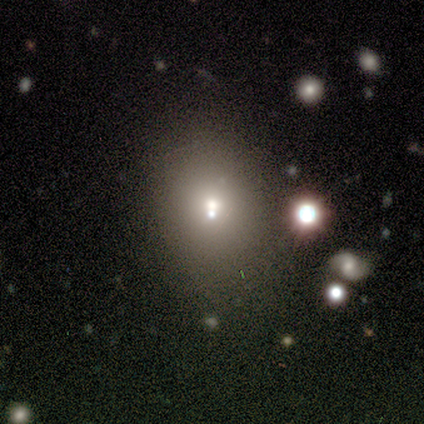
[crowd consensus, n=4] Morphology: type=smooth (50%, tied with star or artifact); roundness=round (50%, tied with in between); merging=none (50%, tied with merger).